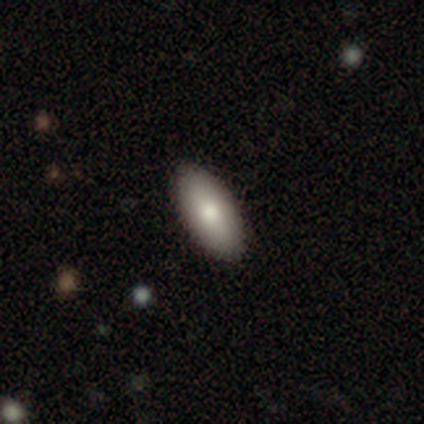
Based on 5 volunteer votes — Smooth or featured?
  - smooth: 60% *
  - featured or disk: 40%
  - star or artifact: 0%
How rounded?
  - in between: 100% *
  - round: 0%
  - cigar-shaped: 0%
Merging?
  - none: 100% *
  - minor disturbance: 0%
  - major disturbance: 0%
  - merger: 0%